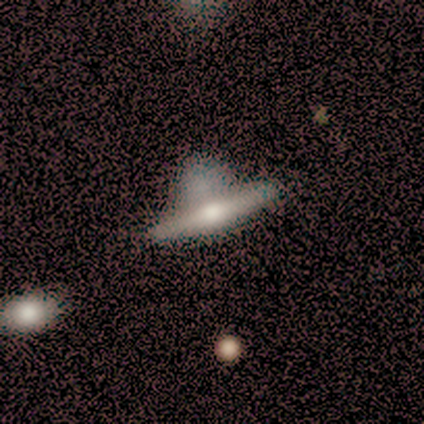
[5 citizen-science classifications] Smooth or featured? 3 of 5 (60%) said featured or disk. Edge-on disk? 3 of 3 (100%) said yes. Edge-on bulge? 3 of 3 (100%) said rounded. Merging? 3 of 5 (60%) said none.